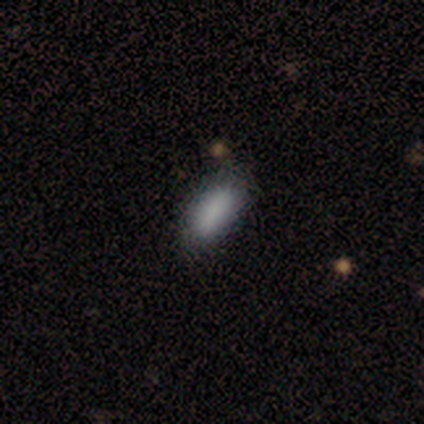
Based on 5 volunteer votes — This appears to be a smooth galaxy with no disk features (100%) that is in between round and cigar-shaped (60%). Merging: none (80%).